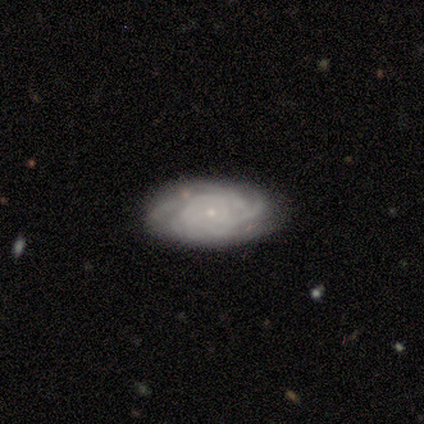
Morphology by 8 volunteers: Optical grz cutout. It shows a featured or disk galaxy (88%) with no bar (71%), tight (86%) spiral arms (100%) and a small central bulge (86%). Merging: minor disturbance (62%).